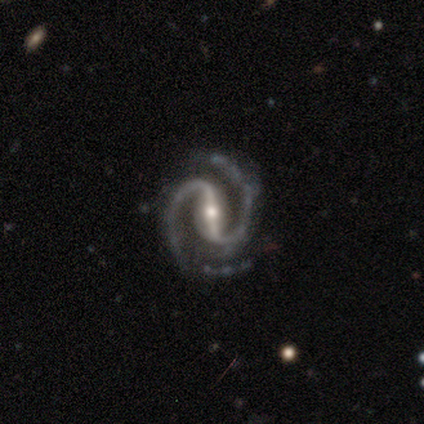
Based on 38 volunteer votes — This appears to be a featured or disk galaxy (95%) with a strong bar (80%), 2 (94%) medium (71%) spiral arms (97%) and a moderate central bulge (51%). Merging: none (75%).